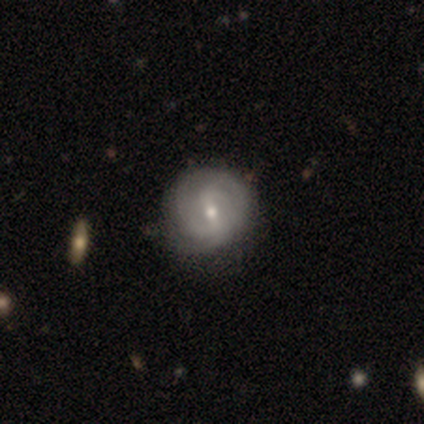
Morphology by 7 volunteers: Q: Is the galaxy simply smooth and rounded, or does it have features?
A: featured or disk — 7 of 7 (100%).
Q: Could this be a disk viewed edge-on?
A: no — 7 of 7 (100%).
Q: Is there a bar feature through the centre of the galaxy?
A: weak — 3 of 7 (43%, tied with no).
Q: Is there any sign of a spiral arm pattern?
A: yes — 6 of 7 (86%).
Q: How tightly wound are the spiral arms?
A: medium — 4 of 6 (67%).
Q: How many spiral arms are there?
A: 2 — 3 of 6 (50%, tied with can't tell).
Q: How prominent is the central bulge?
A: small — 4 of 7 (57%).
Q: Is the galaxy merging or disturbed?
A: none — 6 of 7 (86%).